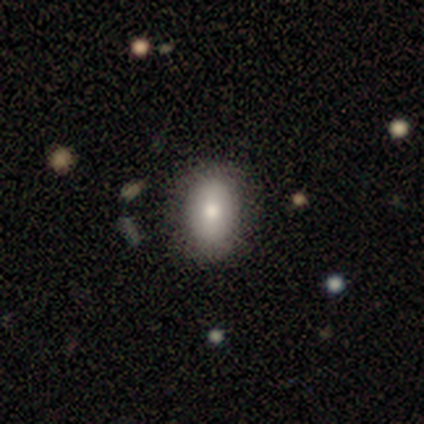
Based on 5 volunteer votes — Volunteers were most divided on "how rounded": in between: 75%, round: 25%, cigar-shaped: 0%. More confident: merging — none (100%); smooth or featured — smooth (80%).